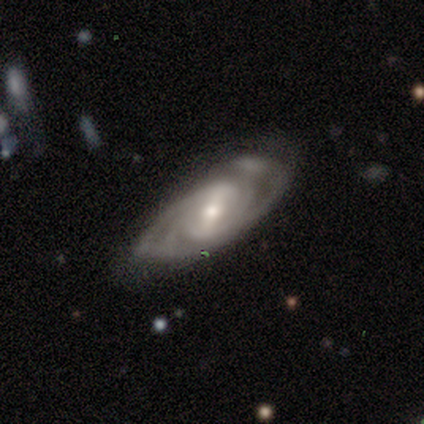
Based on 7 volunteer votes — Volunteers were most divided on "spiral arm count": 2: 43%, 3: 29%, 4: 14%, can't tell: 14%, 1: 0%, more than 4: 0%. More confident: smooth or featured — featured or disk (100%); edge-on disk — no (100%); spiral arms — yes (100%); bar — weak (86%); merging — none (86%); spiral winding — tight (71%); bulge size — moderate (57%).